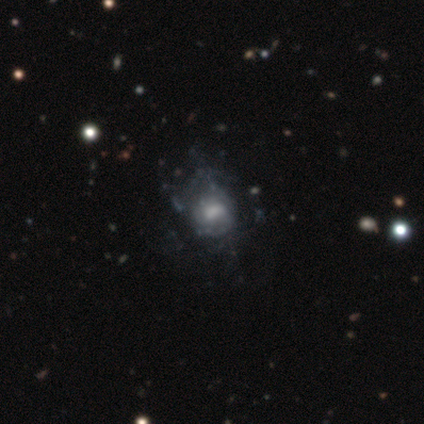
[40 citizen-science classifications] smooth_or_featured: featured or disk (p=0.55) [alt: smooth p=0.30]
disk_edge_on: no (p=0.95) [alt: yes p=0.05]
bar: no (p=0.81) [alt: weak p=0.19]
has_spiral_arms: no (p=0.62) [alt: yes p=0.38]
bulge_size: moderate (p=0.43) [alt: large p=0.24]
merging: none (p=0.32) [alt: major disturbance p=0.24]